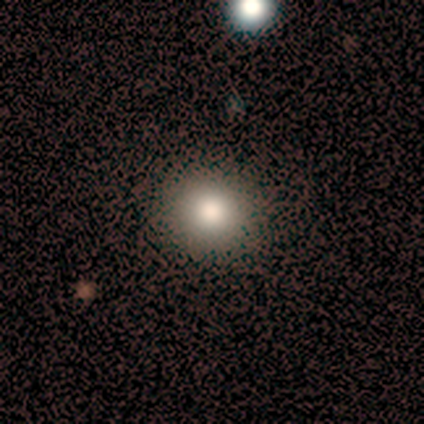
This appears to be a smooth galaxy with no disk features (70%) that is round (100%). Merging: none (100%).